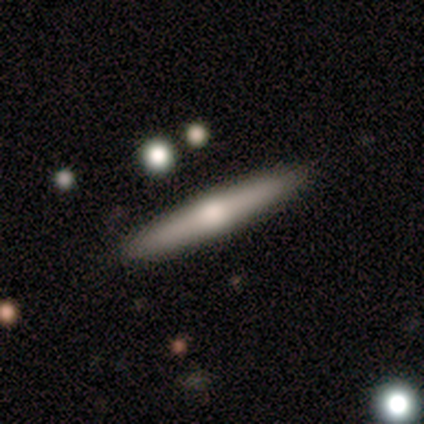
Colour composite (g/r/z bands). It shows a smooth galaxy with no disk features (50%, tied with featured or disk) that is cigar-shaped (100%). Merging: none (100%).